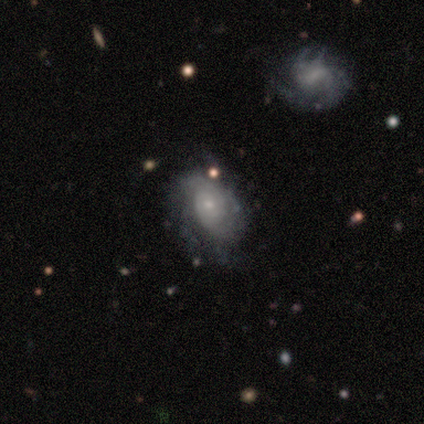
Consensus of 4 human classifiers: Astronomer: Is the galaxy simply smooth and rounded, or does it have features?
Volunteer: featured or disk — 100%.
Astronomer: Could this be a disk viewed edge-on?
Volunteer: no — 100%.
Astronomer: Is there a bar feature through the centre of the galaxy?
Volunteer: no — 100%.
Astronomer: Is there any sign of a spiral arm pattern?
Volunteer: yes — 50%, tied with no at 50%.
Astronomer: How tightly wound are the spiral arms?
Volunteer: loose — 100%.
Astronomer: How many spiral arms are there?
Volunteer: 1 — 50%, tied with 2 at 50%.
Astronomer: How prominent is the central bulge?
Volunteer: small — 75%.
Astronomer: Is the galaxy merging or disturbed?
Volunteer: none — 50%.